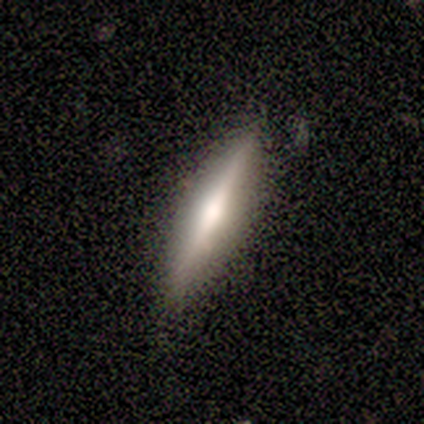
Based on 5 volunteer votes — A smooth galaxy with no disk features (60%) that is cigar-shaped (100%).

Vote fractions:
- Smooth or featured? smooth: 60% / featured or disk: 40% / star or artifact: 0%
- How rounded? cigar-shaped: 100% / round: 0% / in between: 0%
- Merging? none: 100% / minor disturbance: 0% / major disturbance: 0% / merger: 0%